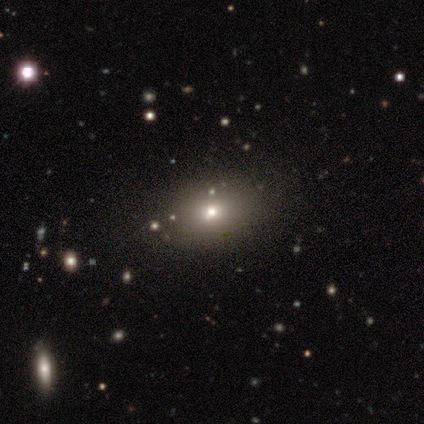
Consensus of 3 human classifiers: smooth-or-featured: smooth: 100% | featured or disk: 0% | star or artifact: 0%
  how-rounded: in between: 67% | round: 33% | cigar-shaped: 0%
  merging: none: 100% | minor disturbance: 0% | major disturbance: 0% | merger: 0%